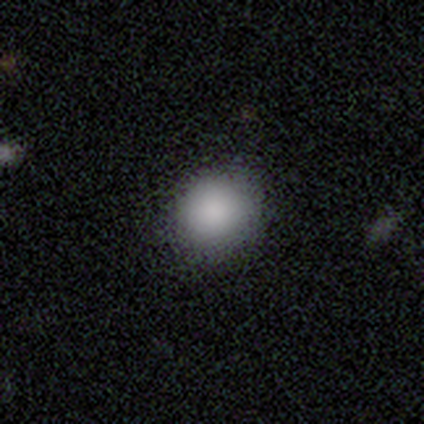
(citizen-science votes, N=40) This appears to be a smooth galaxy with no disk features (82%) that is round (88%). Merging: none (63%).